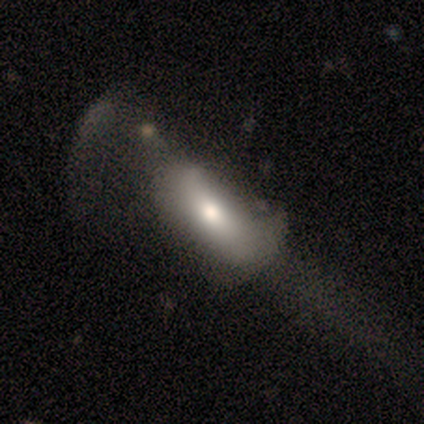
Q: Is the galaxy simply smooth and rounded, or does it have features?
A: smooth — 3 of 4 (75%).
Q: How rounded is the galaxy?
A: in between — 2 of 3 (67%).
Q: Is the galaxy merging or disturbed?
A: minor disturbance — 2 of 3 (67%).